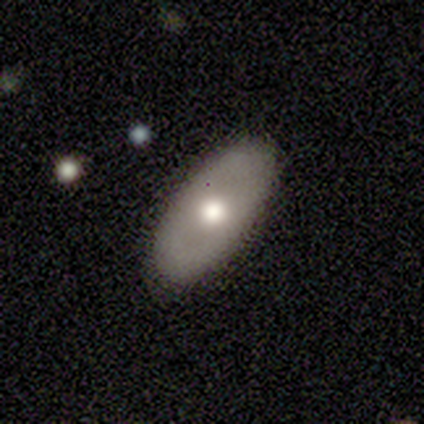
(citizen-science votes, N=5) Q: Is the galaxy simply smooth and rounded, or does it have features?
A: smooth — 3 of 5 (60%).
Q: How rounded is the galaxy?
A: in between — 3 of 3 (100%).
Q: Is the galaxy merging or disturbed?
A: none — 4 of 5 (80%).